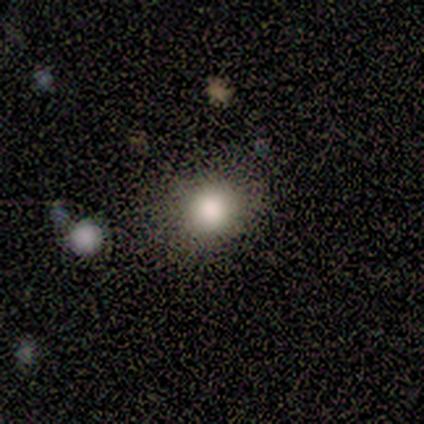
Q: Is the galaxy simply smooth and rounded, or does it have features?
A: smooth — 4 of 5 (80%).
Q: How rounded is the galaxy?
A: round — 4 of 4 (100%).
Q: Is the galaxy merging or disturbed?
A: none — 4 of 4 (100%).